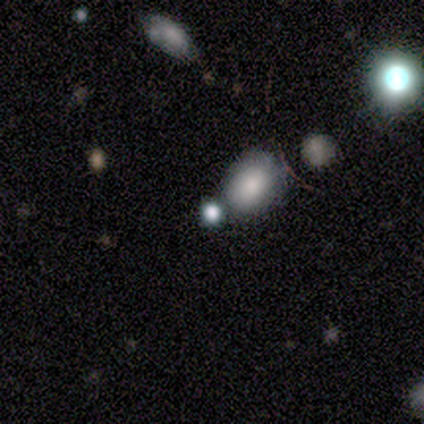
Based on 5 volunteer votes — smooth-or-featured: smooth: 100% | featured or disk: 0% | star or artifact: 0%
  how-rounded: round: 80% | in between: 20% | cigar-shaped: 0%
  merging: none: 60% | merger: 40% | minor disturbance: 0% | major disturbance: 0%